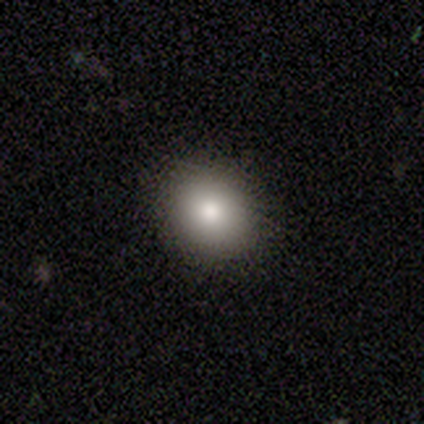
Smooth or featured? smooth (87%)
How rounded? round (59%)
Merging? none (89%)